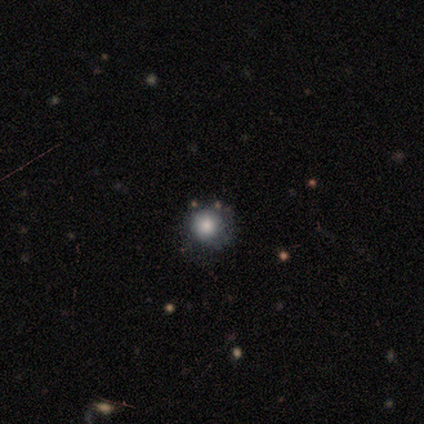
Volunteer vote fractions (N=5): smooth_or_featured: smooth (p=0.80) [alt: featured or disk p=0.20]
how_rounded: round (p=1.00)
merging: none (p=0.60) [alt: minor disturbance p=0.20]